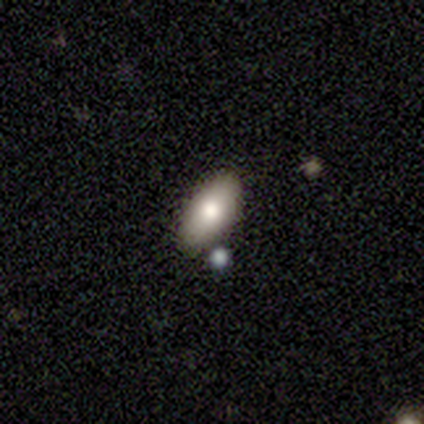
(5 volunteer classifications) Q: Smooth or featured?
A: smooth (80%); runner-up: star or artifact (20%)
Q: How rounded?
A: in between (100%)
Q: Merging?
A: none (50%); runner-up: minor disturbance (25%)